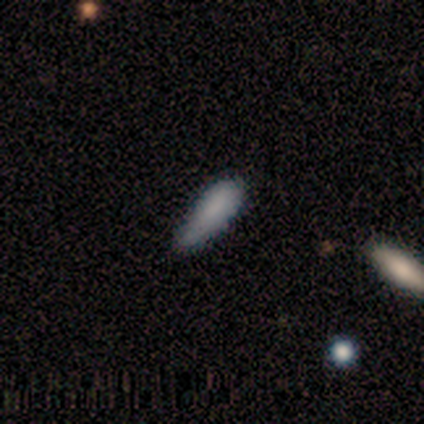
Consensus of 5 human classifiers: This is likely a smooth galaxy (60%). How rounded: likely in between (67%). Merging: likely none (75%).